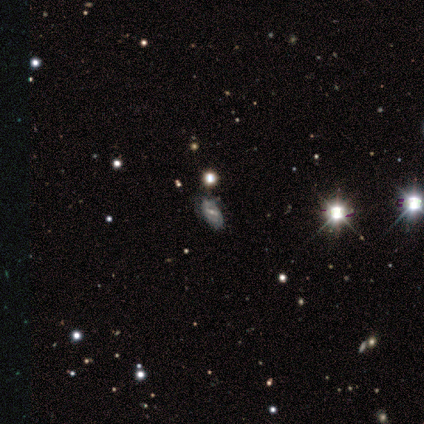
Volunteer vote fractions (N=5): Smooth or featured? 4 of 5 (80%) said featured or disk. Edge-on disk? 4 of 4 (100%) said no. Bar? 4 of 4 (100%) said strong. Spiral arms? 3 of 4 (75%) said yes. Spiral winding? 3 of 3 (100%) said tight. Spiral arm count? 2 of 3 (67%) said 2. Bulge size? 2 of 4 (50%, tied with small) said moderate. Merging? 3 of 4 (75%) said none.